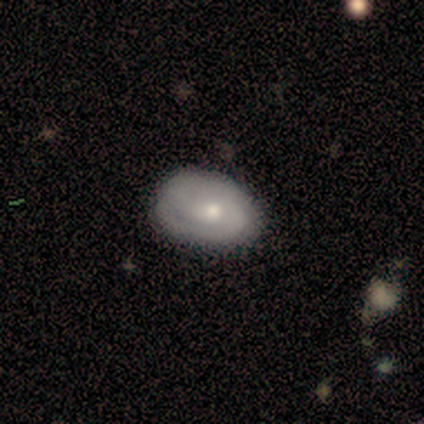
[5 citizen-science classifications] Morphology: type=featured or disk (60%); edge-on=no (100%); bar=weak (100%); spiral arms=yes (100%); winding=medium (67%); arm count=2 (67%); bulge=small (67%); merging=none (80%).